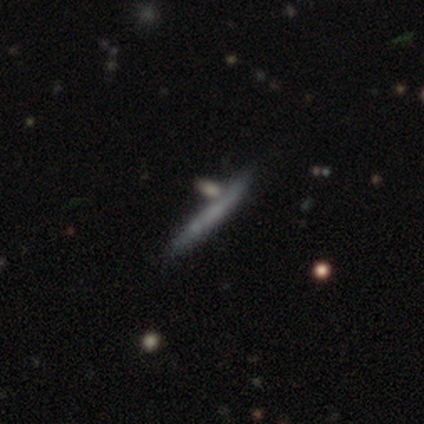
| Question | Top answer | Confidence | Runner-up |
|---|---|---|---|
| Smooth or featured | smooth | 50% | featured or disk (25%) |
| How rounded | cigar-shaped | 100% | — |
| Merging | none | 67% | minor disturbance (33%) |